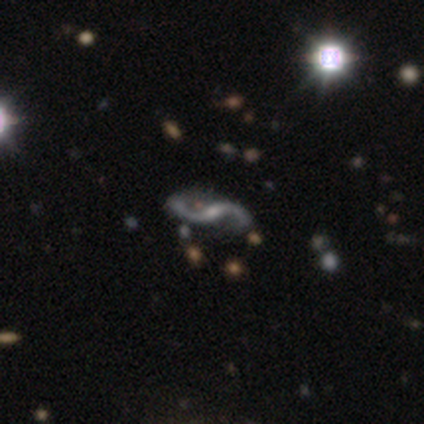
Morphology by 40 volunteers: smooth_or_featured: featured or disk (p=0.88) [alt: star or artifact p=0.12]
disk_edge_on: no (p=1.00)
bar: weak (p=0.57) [alt: strong p=0.29]
has_spiral_arms: yes (p=0.94) [alt: no p=0.06]
spiral_winding: loose (p=0.94) [alt: medium p=0.06]
spiral_arm_count: 2 (p=1.00)
bulge_size: small (p=0.60) [alt: moderate p=0.29]
merging: none (p=0.69) [alt: minor disturbance p=0.26]